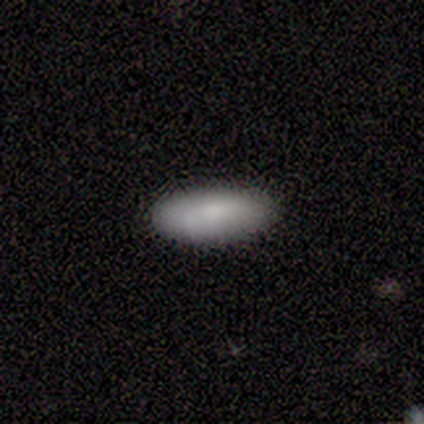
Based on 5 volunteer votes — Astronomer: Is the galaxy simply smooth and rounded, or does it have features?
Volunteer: smooth — 80%.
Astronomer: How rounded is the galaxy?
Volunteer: in between — 50%, tied with cigar-shaped at 50%.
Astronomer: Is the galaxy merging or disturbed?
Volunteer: none — 100%.